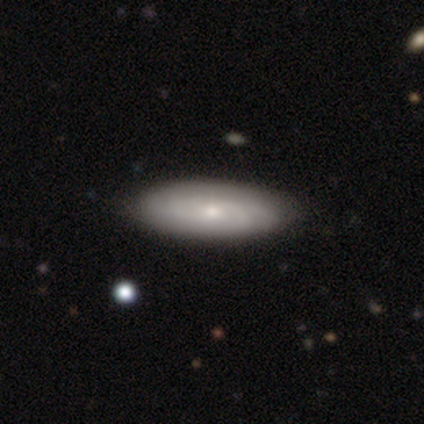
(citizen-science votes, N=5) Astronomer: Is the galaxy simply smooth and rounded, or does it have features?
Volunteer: featured or disk — 60% (runner-up: smooth, 40%).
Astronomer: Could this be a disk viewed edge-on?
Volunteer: no — 100%.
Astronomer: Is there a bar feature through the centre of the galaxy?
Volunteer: no — 100%.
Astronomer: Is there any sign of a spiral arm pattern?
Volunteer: yes — 67%.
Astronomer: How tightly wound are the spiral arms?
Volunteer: medium — 100%.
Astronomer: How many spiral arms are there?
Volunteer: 4 — 50%, tied with can't tell at 50%.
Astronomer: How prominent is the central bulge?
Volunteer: small — 67%.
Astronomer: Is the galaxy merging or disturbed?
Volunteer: none — 80%.